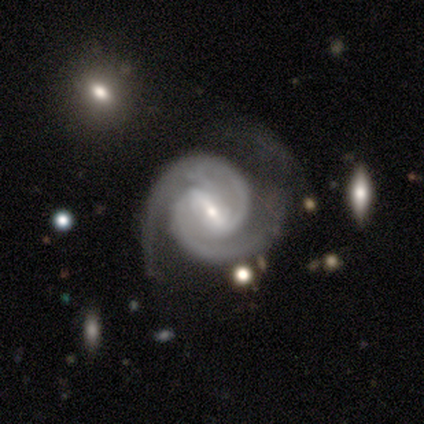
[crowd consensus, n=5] Smooth or featured? 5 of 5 (100%) said featured or disk. Edge-on disk? 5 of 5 (100%) said no. Bar? 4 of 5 (80%) said strong. Spiral arms? 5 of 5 (100%) said yes. Spiral winding? 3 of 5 (60%) said medium. Spiral arm count? 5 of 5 (100%) said 2. Bulge size? 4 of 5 (80%) said small. Merging? 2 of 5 (40%, tied with minor disturbance) said none.